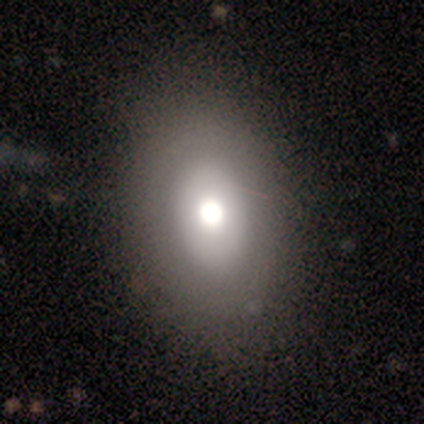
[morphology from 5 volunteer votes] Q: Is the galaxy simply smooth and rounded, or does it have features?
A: smooth — 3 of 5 (60%).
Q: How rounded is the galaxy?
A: in between — 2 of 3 (67%).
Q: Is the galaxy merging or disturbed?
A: none — 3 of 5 (60%).